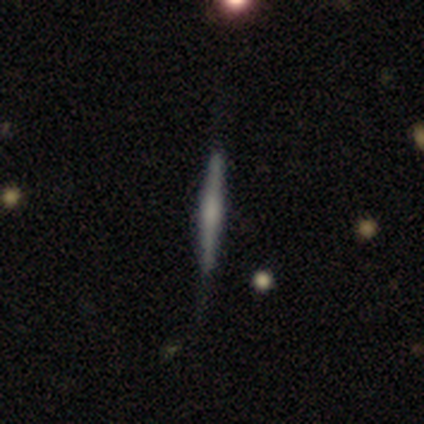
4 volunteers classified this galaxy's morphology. Smooth or featured?
  - smooth: 50% * (tied)
  - featured or disk: 50% * (tied)
  - star or artifact: 0%
How rounded?
  - cigar-shaped: 100% *
  - round: 0%
  - in between: 0%
Merging?
  - none: 50% * (tied)
  - minor disturbance: 50% * (tied)
  - major disturbance: 0%
  - merger: 0%